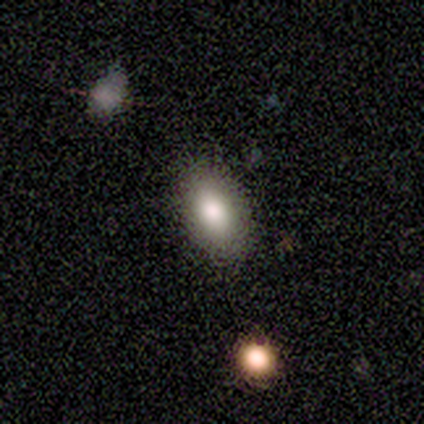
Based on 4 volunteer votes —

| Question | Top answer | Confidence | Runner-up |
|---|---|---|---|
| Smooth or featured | smooth | 100% | — |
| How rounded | in between | 100% | — |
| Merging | none | 100% | — |